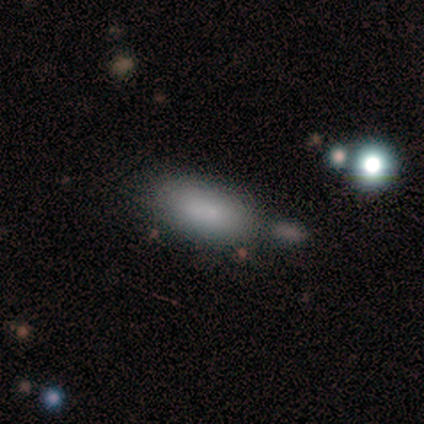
A smooth galaxy with no disk features (75%) that is in between round and cigar-shaped (100%). Merging: none (67%).